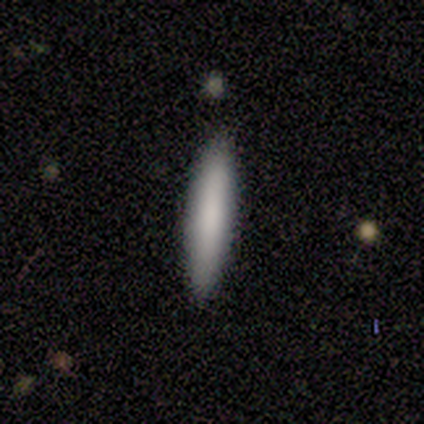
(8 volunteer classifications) A smooth galaxy with no disk features (75%) that is cigar-shaped (100%). Merging: none (75%).